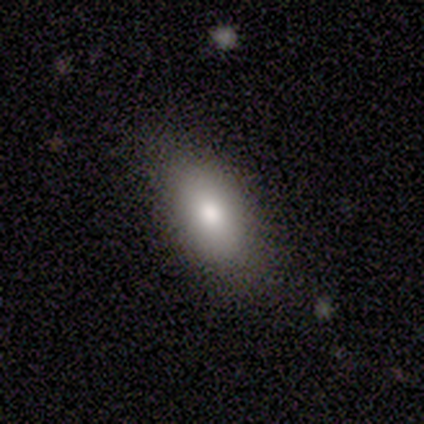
Smooth or featured?
  - smooth: 87% *
  - featured or disk: 7%
  - star or artifact: 7%
How rounded?
  - in between: 85% *
  - round: 8%
  - cigar-shaped: 8%
Merging?
  - none: 79% *
  - minor disturbance: 21%
  - major disturbance: 0%
  - merger: 0%